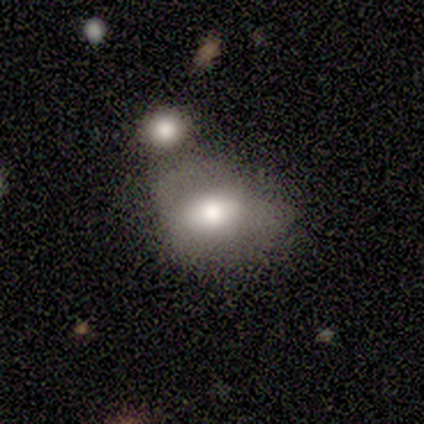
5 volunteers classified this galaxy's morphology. Overall: smooth (100%). How rounded: in between (60%; round 40%). Merging: merger (80%).